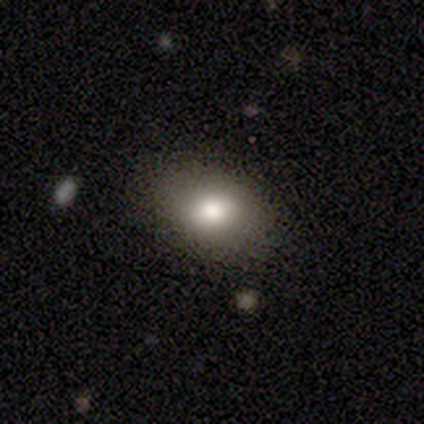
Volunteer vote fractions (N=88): This is clearly a smooth galaxy (88%). How rounded: likely in between (79%). Merging: clearly none (81%).